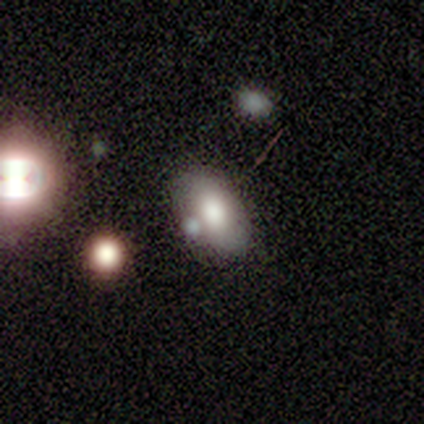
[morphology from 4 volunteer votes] type=smooth (75%); roundness=in between (100%); merging=none (50%).